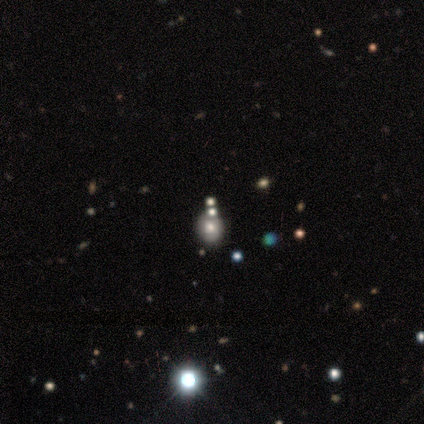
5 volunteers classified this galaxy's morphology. Smooth or featured?
  - star or artifact: 60% *
  - smooth: 40%
  - featured or disk: 0%